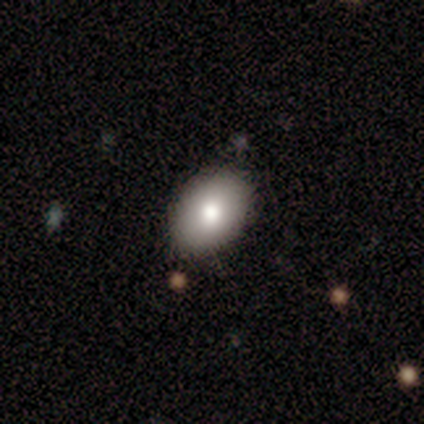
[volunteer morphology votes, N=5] smooth_or_featured: smooth (p=0.80) [alt: featured or disk p=0.20]
how_rounded: in between (p=0.75) [alt: round p=0.25]
merging: none (p=1.00)